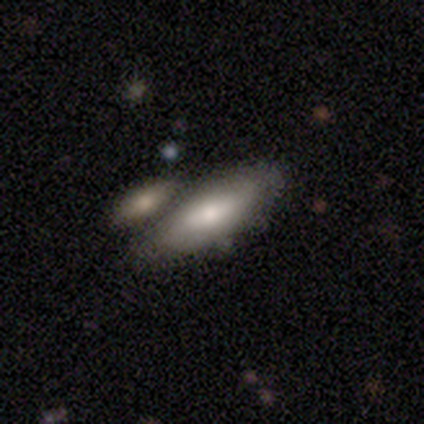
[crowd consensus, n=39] Q: Smooth or featured?
A: smooth (59%); runner-up: featured or disk (28%)
Q: How rounded?
A: in between (61%); runner-up: cigar-shaped (35%)
Q: Merging?
A: none (50%); runner-up: merger (32%)